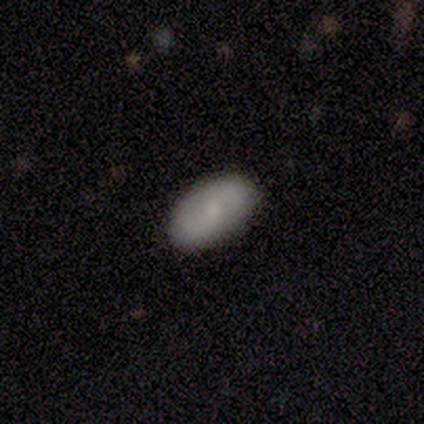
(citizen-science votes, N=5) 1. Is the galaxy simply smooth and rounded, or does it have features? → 40% smooth (tied), 40% featured or disk (tied), 20% star or artifact.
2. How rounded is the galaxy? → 100% in between, 0% round, 0% cigar-shaped.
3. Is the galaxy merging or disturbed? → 100% none, 0% minor disturbance, 0% major disturbance, 0% merger.